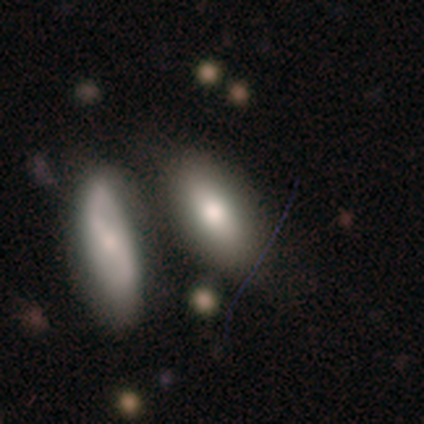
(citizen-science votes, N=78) This is likely a smooth galaxy (72%). How rounded: clearly in between (91%). Merging: marginally merger (42%).